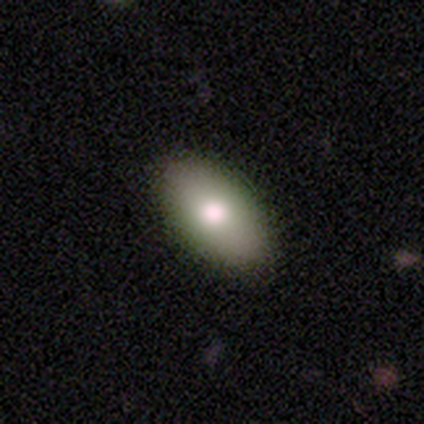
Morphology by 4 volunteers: This appears to be a smooth galaxy with no disk features (100%) that is in between round and cigar-shaped (100%). Merging: none (100%).